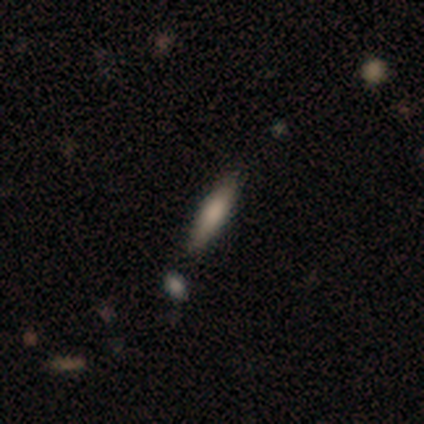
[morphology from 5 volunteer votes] smooth_or_featured: smooth (p=0.60) [alt: star or artifact p=0.40]
how_rounded: cigar-shaped (p=0.67) [alt: in between p=0.33]
merging: none (p=1.00)